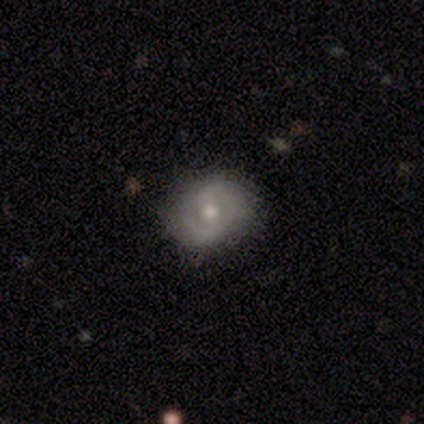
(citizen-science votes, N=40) Smooth or featured? featured or disk (65%)
Edge-on disk? no (96%)
Bar? no (60%)
Spiral arms? yes (84%)
Spiral winding? medium (43%)
Spiral arm count? 2 (67%)
Bulge size? moderate (48%)
Merging? none (77%)